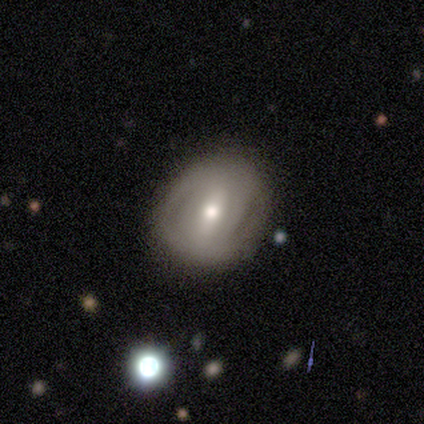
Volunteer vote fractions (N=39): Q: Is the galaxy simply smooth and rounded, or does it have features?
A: featured or disk — 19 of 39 (49%).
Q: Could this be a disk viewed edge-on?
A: no — 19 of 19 (100%).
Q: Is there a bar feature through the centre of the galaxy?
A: strong — 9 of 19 (47%).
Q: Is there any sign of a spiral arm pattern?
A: no — 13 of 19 (68%).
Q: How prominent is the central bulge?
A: moderate — 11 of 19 (58%).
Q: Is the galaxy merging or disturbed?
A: none — 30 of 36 (83%).